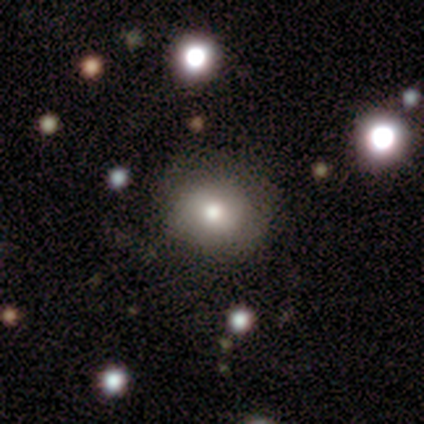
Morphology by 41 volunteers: This appears to be a smooth galaxy with no disk features (80%) that is round (64%). Merging: none (80%).